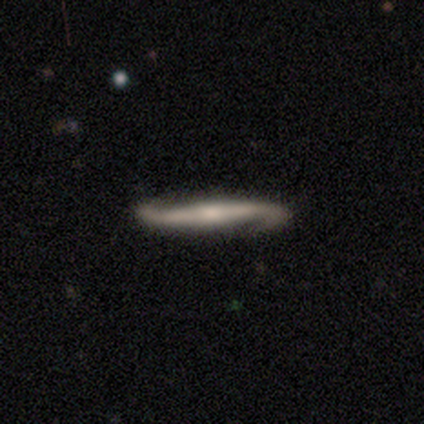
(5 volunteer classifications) Smooth or featured: featured or disk — 100%
Edge-on disk: yes — 60% (no — 40%)
Edge-on bulge: rounded — 67% (none — 33%)
Merging: none — 80% (minor disturbance — 20%)